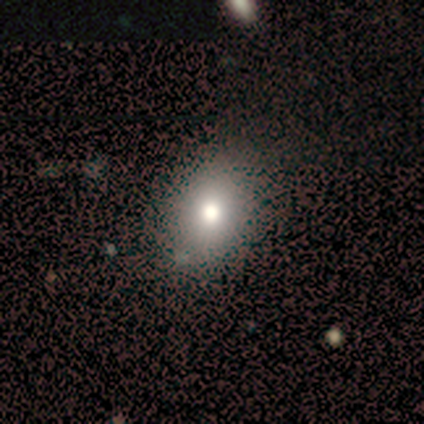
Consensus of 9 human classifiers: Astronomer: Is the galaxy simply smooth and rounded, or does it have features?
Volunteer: smooth — 67%.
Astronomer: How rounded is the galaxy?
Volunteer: in between — 100%.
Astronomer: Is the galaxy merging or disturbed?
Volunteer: none — 75%.